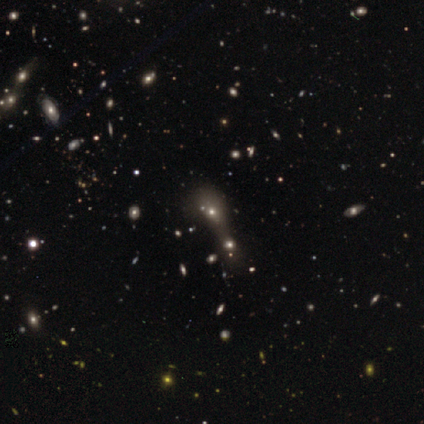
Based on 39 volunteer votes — Smooth or featured? 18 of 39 (46%) said smooth. How rounded? 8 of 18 (44%, tied with in between) said round. Merging? 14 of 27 (52%) said merger.